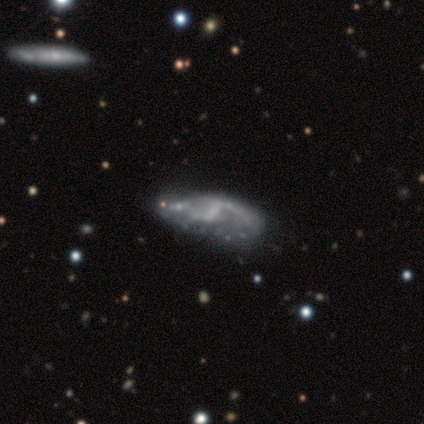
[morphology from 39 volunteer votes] smooth-or-featured: featured or disk: 82% | smooth: 10% | star or artifact: 8%
  disk-edge-on: no: 94% | yes: 6%
    bar: weak: 43% | no: 40% | strong: 17%
    has-spiral-arms: yes: 67% | no: 33%
      spiral-winding: loose: 75% | medium: 15% | tight: 10%
      spiral-arm-count: 2: 60% | 1: 20% | can't tell: 20% | 3: 0% | 4: 0% | more than 4: 0%
    bulge-size: none: 57% | small: 37% | large: 3% | moderate: 3% | dominant: 0%
  merging: none: 67% | minor disturbance: 14% | major disturbance: 11% | merger: 8%